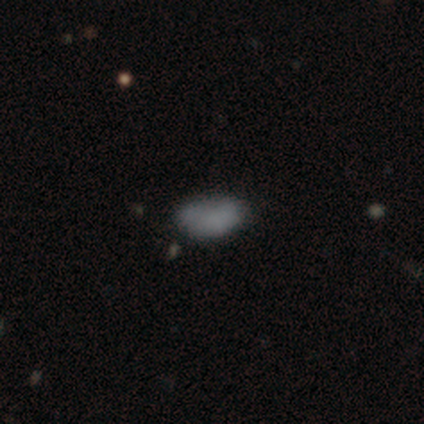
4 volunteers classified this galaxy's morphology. Smooth or featured: smooth — 75% (featured or disk — 25%)
How rounded: in between — 100%
Merging: none — 75% (major disturbance — 25%)